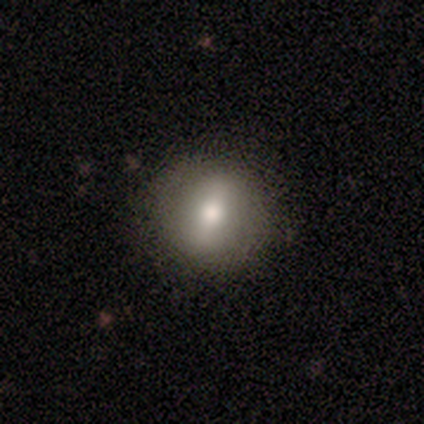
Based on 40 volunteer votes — Smooth or featured? 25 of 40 (62%) said smooth. How rounded? 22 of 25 (88%) said round. Merging? 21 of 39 (54%) said none.